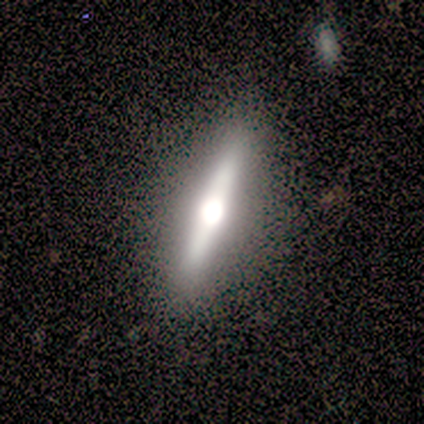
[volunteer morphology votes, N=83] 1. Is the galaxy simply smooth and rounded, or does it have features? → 77% featured or disk, 22% smooth, 1% star or artifact.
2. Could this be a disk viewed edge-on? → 88% yes, 12% no.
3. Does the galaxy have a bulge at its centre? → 98% rounded, 2% boxy, 0% none.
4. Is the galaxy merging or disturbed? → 84% none, 11% minor disturbance, 2% major disturbance, 2% merger.